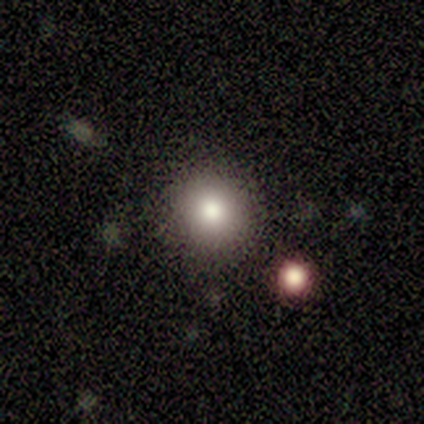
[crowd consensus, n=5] smooth 80%, star or artifact 20%, featured or disk 0%. Down the decision tree: how rounded — round (75%); merging — none (75%).